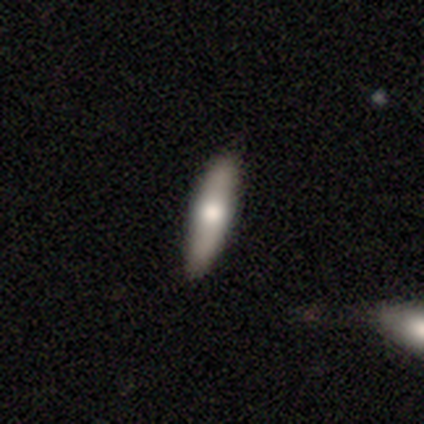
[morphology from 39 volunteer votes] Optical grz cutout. It shows a smooth galaxy with no disk features (56%) that is cigar-shaped (64%). Merging: none (97%).